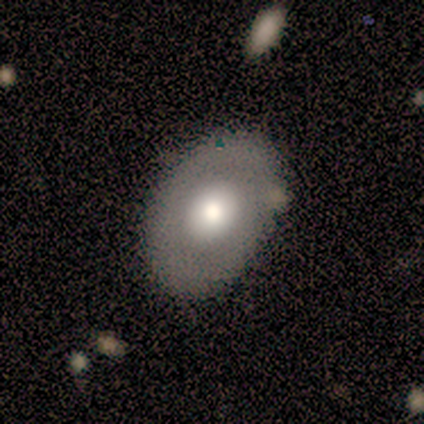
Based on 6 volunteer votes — A smooth galaxy with no disk features (50%, tied with featured or disk) that is in between round and cigar-shaped (100%).

Vote fractions:
- Smooth or featured? smooth: 50% (tied) / featured or disk: 50% (tied) / star or artifact: 0%
- How rounded? in between: 100% / round: 0% / cigar-shaped: 0%
- Merging? none: 100% / minor disturbance: 0% / major disturbance: 0% / merger: 0%